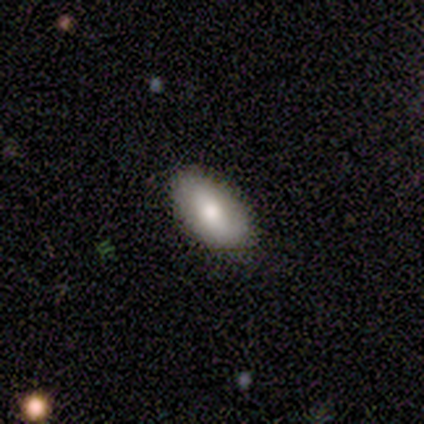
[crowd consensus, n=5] Q: Smooth or featured?
A: smooth (100%)
Q: How rounded?
A: in between (80%); runner-up: round (20%)
Q: Merging?
A: none (80%); runner-up: minor disturbance (20%)